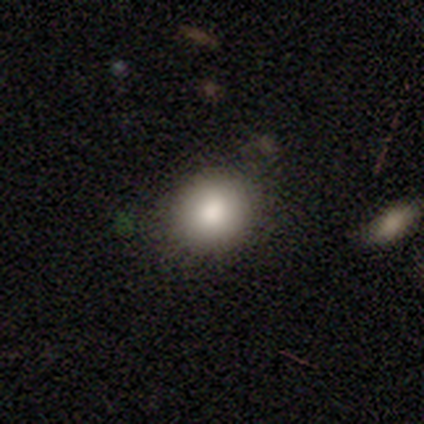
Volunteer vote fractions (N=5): Morphology: type=smooth (100%); roundness=round (80%); merging=none (100%).